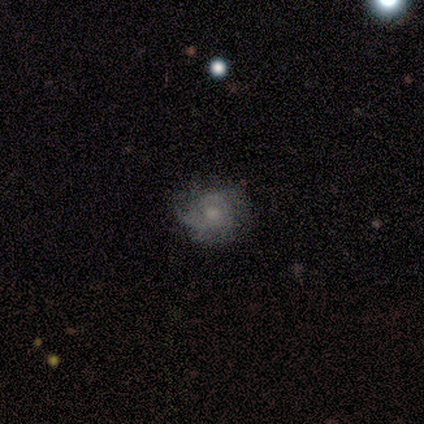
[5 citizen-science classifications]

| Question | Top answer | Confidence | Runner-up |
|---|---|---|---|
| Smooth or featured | featured or disk | 80% | smooth (20%) |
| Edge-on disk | no | 100% | — |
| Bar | no | 100% | — |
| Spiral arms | yes | 75% | no (25%) |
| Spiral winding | tight | 100% | — |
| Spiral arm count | can't tell | 67% | 3 (33%) |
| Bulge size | moderate | 50% | tied: small (50%) |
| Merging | none | 60% | minor disturbance (20%) |